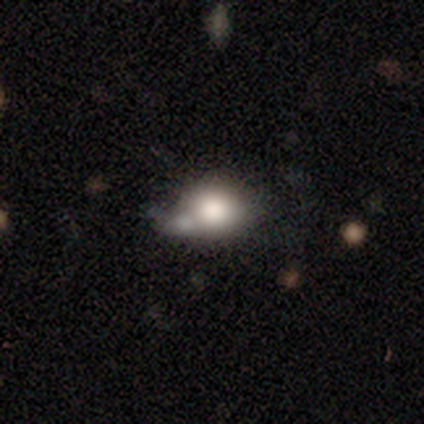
smooth 75%, featured or disk 18%, star or artifact 7%. Down the decision tree: how rounded — round (67%); merging — none (39%).